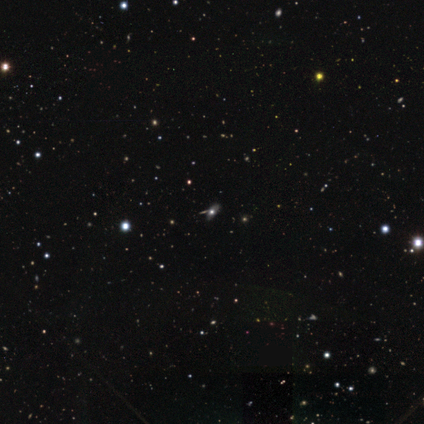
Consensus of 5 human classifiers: Overall: smooth (40%, tied with star or artifact). How rounded: in between (100%). Merging: none (67%; minor disturbance 33%).